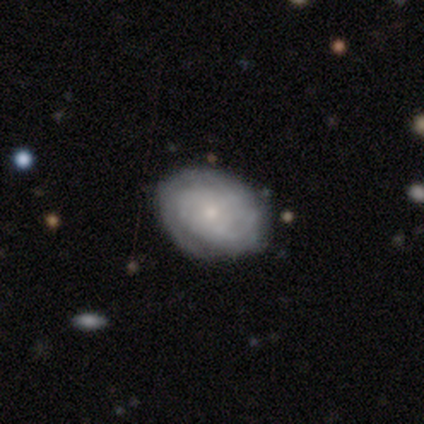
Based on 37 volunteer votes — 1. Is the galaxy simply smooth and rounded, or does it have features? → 76% featured or disk, 24% smooth, 0% star or artifact.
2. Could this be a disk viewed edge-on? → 100% no, 0% yes.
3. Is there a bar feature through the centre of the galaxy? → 82% no, 18% weak, 0% strong.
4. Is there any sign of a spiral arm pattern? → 93% yes, 7% no.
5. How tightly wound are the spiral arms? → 77% tight, 15% medium, 8% loose.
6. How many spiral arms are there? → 58% can't tell, 19% 2, 15% 3, 4% 1, 4% more than 4, 0% 4.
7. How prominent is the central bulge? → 71% small, 29% moderate, 0% dominant, 0% large, 0% none.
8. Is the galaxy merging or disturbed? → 81% none, 14% minor disturbance, 5% major disturbance, 0% merger.